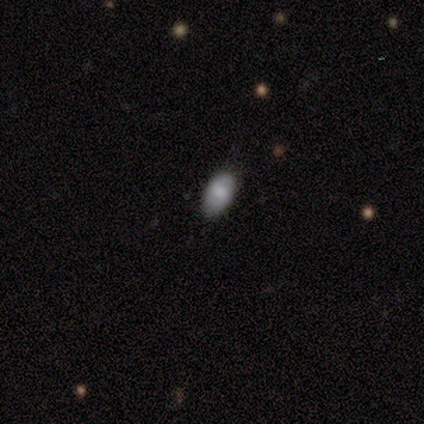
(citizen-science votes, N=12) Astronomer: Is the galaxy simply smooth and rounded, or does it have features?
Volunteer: smooth — 75%.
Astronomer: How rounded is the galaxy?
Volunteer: in between — 100%.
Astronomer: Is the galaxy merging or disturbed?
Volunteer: none — 83%.